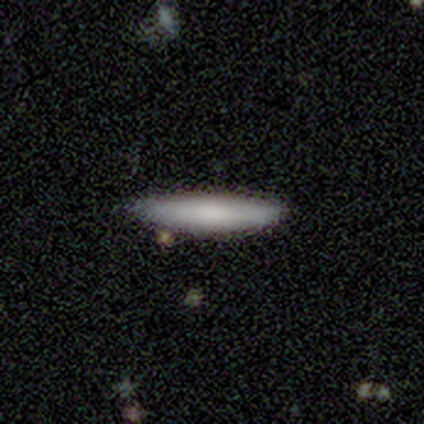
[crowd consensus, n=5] smooth-or-featured: smooth: 80% | star or artifact: 20% | featured or disk: 0%
  how-rounded: cigar-shaped: 75% | in between: 25% | round: 0%
  merging: none: 100% | minor disturbance: 0% | major disturbance: 0% | merger: 0%